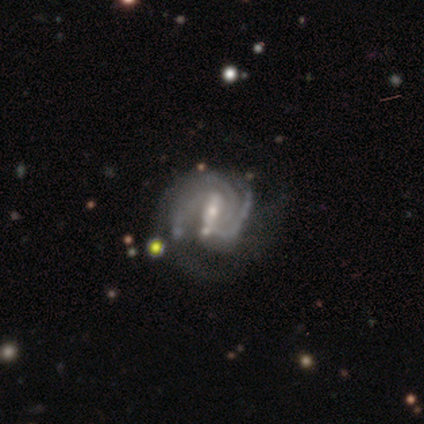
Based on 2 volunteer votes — smooth_or_featured: featured or disk (p=0.50) [tied with: star or artifact p=0.50]
disk_edge_on: no (p=1.00)
bar: weak (p=1.00)
has_spiral_arms: yes (p=1.00)
spiral_winding: tight (p=1.00)
spiral_arm_count: 3 (p=1.00)
bulge_size: small (p=1.00)
merging: minor disturbance (p=1.00)